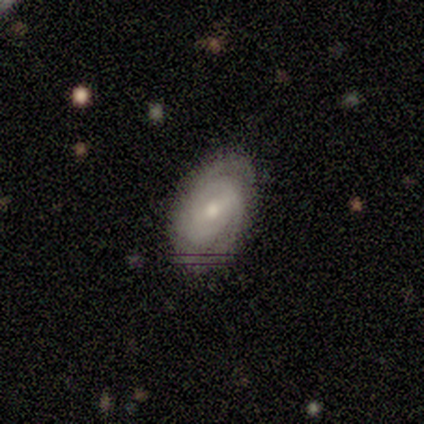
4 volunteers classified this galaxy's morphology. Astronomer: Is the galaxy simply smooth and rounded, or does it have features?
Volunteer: featured or disk — 75%.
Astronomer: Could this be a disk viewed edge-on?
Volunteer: no — 100%.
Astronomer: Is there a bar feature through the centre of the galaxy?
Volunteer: weak — 100%.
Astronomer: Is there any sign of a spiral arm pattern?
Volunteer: yes — 100%.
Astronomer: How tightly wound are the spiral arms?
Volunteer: tight — 67%.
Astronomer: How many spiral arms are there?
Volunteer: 2 — 33%, tied with more than 4 and can't tell at 33%.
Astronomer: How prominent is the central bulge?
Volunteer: moderate — 67%.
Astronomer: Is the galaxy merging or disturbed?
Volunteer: none — 75%.